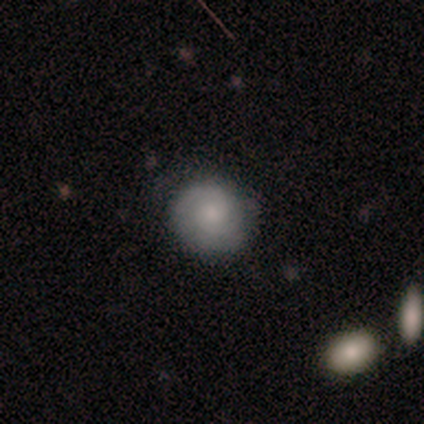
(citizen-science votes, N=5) A featured or disk galaxy (60%) with no bar (67%), 2 (50%, tied with can't tell) tight (100%) spiral arms (67%) and a small central bulge (100%).

Vote fractions:
- Smooth or featured? featured or disk: 60% / smooth: 40% / star or artifact: 0%
- Edge-on disk? no: 100% / yes: 0%
- Bar? no: 67% / weak: 33% / strong: 0%
- Spiral arms? yes: 67% / no: 33%
- Spiral winding? tight: 100% / medium: 0% / loose: 0%
- Spiral arm count? 2: 50% (tied) / can't tell: 50% (tied) / 1: 0% / 3: 0% / 4: 0% / more than 4: 0%
- Bulge size? small: 100% / dominant: 0% / large: 0% / moderate: 0% / none: 0%
- Merging? none: 100% / minor disturbance: 0% / major disturbance: 0% / merger: 0%